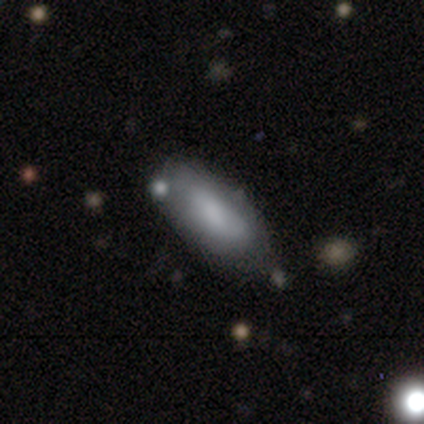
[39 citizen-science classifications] Smooth or featured? 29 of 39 (74%) said smooth. How rounded? 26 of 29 (90%) said in between. Merging? 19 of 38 (50%) said none.